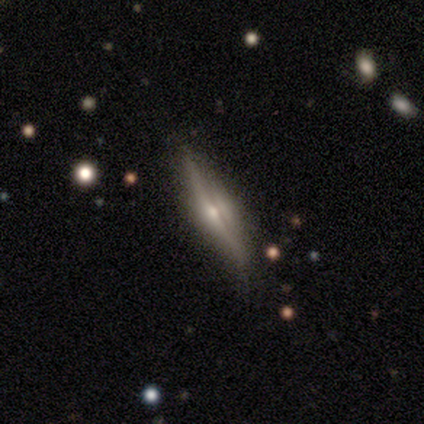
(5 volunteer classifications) Overall: featured or disk (80%). Edge-on disk: yes (75%). Edge-on bulge: rounded (100%). Merging: none (80%).